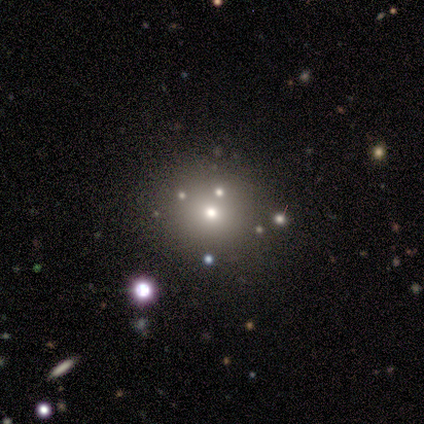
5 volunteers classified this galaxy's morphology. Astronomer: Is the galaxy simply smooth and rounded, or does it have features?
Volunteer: smooth — 40%, tied with featured or disk at 40%.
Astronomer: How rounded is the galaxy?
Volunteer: round — 100%.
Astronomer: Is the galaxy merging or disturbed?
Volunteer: none — 100%.